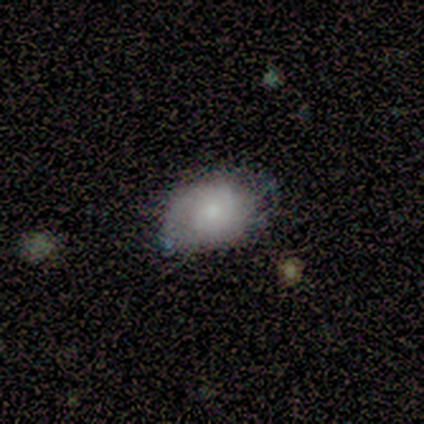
Smooth or featured? 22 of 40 (55%) said featured or disk. Edge-on disk? 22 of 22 (100%) said no. Bar? 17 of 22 (77%) said no. Spiral arms? 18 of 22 (82%) said yes. Spiral winding? 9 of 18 (50%) said tight. Spiral arm count? 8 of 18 (44%) said can't tell. Bulge size? 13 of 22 (59%) said small. Merging? 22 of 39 (56%) said none.